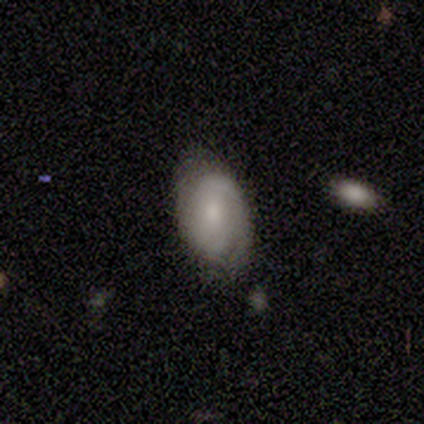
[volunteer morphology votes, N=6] A featured or disk galaxy (67%) with no bar (75%), 2 (75%) medium (50%) spiral arms (100%) and a moderate central bulge (50%).

Vote fractions:
- Smooth or featured? featured or disk: 67% / smooth: 33% / star or artifact: 0%
- Edge-on disk? no: 100% / yes: 0%
- Bar? no: 75% / weak: 25% / strong: 0%
- Spiral arms? yes: 100% / no: 0%
- Spiral winding? medium: 50% / tight: 25% / loose: 25%
- Spiral arm count? 2: 75% / 1: 25% / 3: 0% / 4: 0% / more than 4: 0% / can't tell: 0%
- Bulge size? moderate: 50% / small: 25% / none: 25% / dominant: 0% / large: 0%
- Merging? none: 83% / minor disturbance: 17% / major disturbance: 0% / merger: 0%